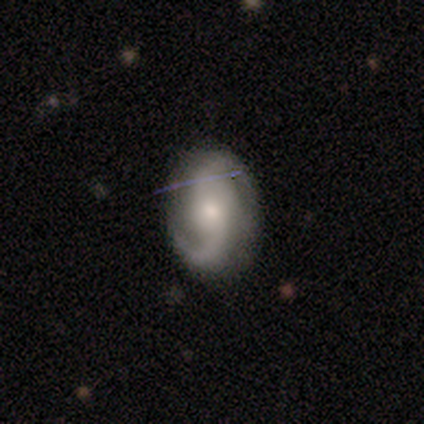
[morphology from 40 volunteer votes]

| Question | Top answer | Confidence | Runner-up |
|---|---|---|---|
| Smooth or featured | featured or disk | 75% | smooth (20%) |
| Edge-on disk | no | 100% | — |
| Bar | no | 57% | weak (30%) |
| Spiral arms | yes | 93% | no (7%) |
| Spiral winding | medium | 46% | loose (43%) |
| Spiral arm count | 2 | 86% | can't tell (7%) |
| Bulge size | moderate | 53% | small (37%) |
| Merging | none | 79% | minor disturbance (18%) |